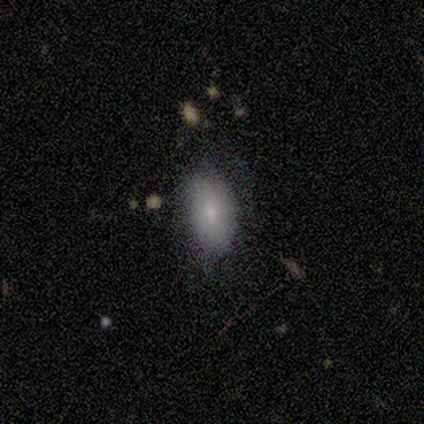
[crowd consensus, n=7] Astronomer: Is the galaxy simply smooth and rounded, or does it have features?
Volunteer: smooth — 86%.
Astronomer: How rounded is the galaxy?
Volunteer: in between — 100%.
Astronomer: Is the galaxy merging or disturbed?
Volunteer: none — 86%.